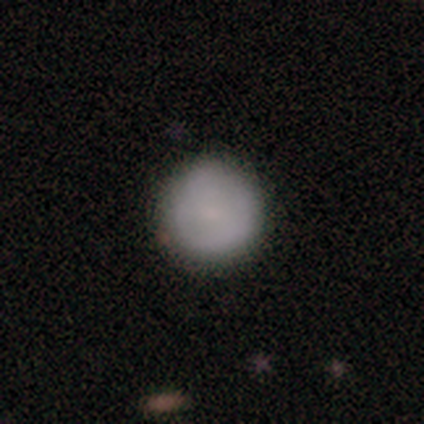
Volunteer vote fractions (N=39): A smooth galaxy with no disk features (82%) that is round (97%). Merging: none (84%).